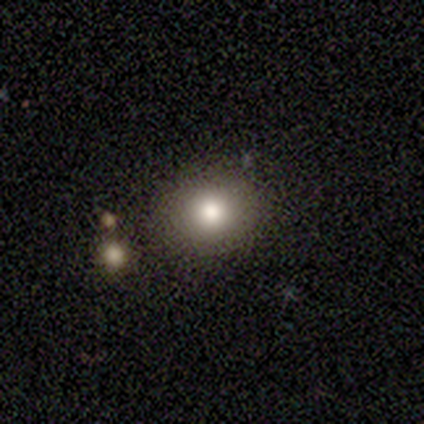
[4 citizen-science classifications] Consensus on every question: smooth or featured — smooth (100%); how rounded — round (100%); merging — none (100%).